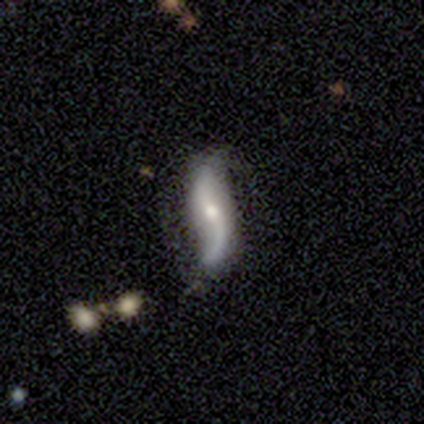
Smooth or featured? 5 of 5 (100%) said featured or disk. Edge-on disk? 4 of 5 (80%) said no. Bar? 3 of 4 (75%) said no. Spiral arms? 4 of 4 (100%) said yes. Spiral winding? 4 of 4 (100%) said loose. Spiral arm count? 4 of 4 (100%) said 2. Bulge size? 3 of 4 (75%) said moderate. Merging? 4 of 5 (80%) said none.